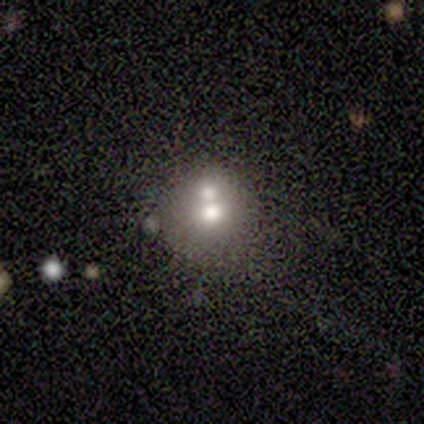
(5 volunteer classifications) Smooth or featured: featured or disk — 40% (tied with star or artifact — 40%)
Edge-on disk: no — 100%
Bar: strong — 50% (tied with no — 50%)
Spiral arms: no — 100%
Bulge size: large — 50% (tied with moderate — 50%)
Merging: merger — 67% (none — 33%)